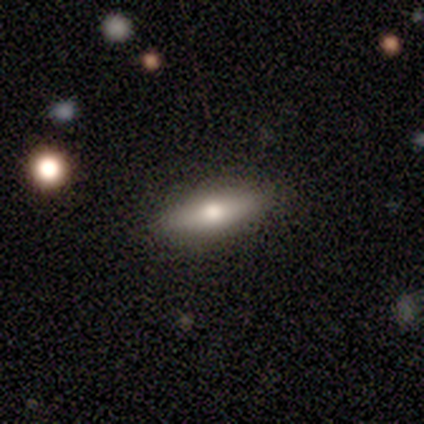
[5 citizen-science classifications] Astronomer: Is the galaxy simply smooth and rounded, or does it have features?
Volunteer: smooth — 80%.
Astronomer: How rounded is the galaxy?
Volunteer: in between — 75%.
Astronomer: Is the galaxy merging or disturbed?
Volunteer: none — 100%.